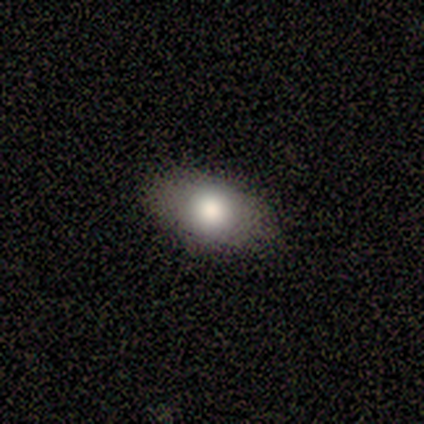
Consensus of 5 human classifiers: A smooth galaxy with no disk features (80%) that is round (50%, tied with in between). Merging: none (75%).